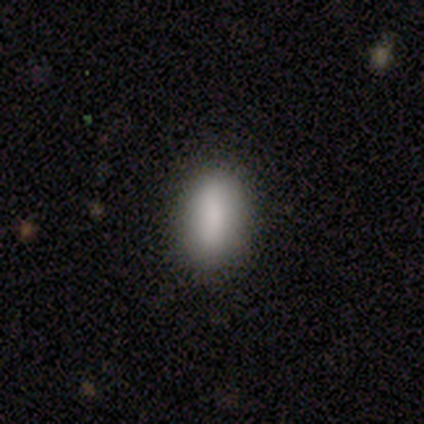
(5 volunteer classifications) A smooth galaxy with no disk features (100%) that is in between round and cigar-shaped (100%). Merging: none (60%).